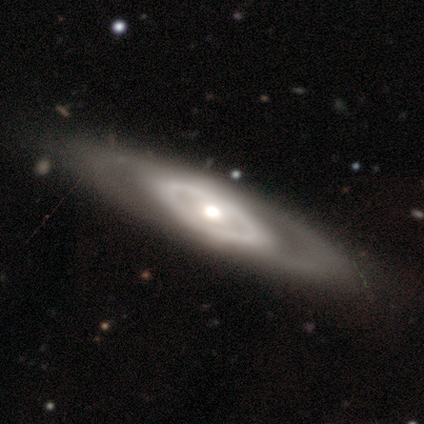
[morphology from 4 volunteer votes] Smooth or featured: featured or disk — 75% (smooth — 25%)
Edge-on disk: yes — 67% (no — 33%)
Edge-on bulge: none — 50% (tied with rounded — 50%)
Merging: none — 50% (tied with merger — 50%)